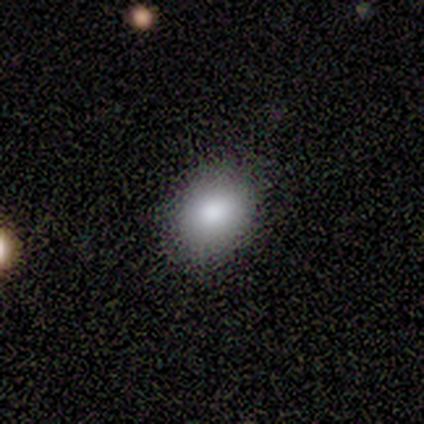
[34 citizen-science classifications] Volunteers were most divided on "how rounded": in between: 57%, round: 43%, cigar-shaped: 0%. More confident: smooth or featured — smooth (88%); merging — none (84%).